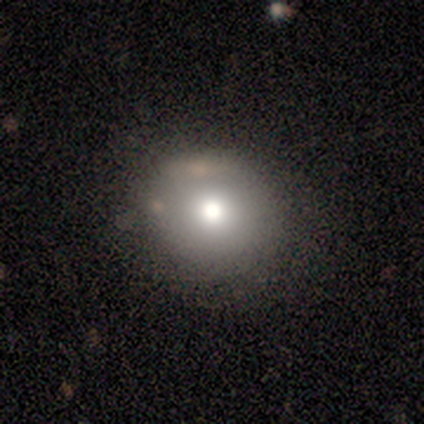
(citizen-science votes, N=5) smooth 80%, featured or disk 20%, star or artifact 0%. Down the decision tree: how rounded — round (100%); merging — none (80%).